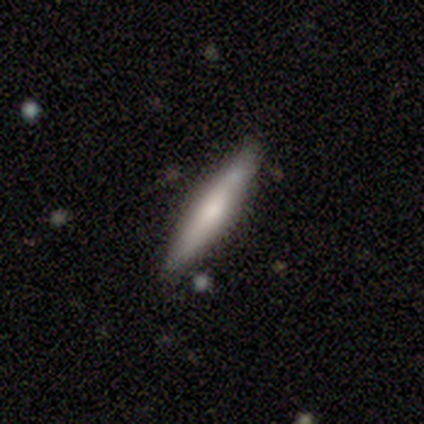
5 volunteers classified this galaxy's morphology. A featured or disk galaxy (80%) viewed edge-on (100%) with a rounded central bulge (75%).

Vote fractions:
- Smooth or featured? featured or disk: 80% / smooth: 20% / star or artifact: 0%
- Edge-on disk? yes: 100% / no: 0%
- Edge-on bulge? rounded: 75% / none: 25% / boxy: 0%
- Merging? none: 60% / minor disturbance: 40% / major disturbance: 0% / merger: 0%